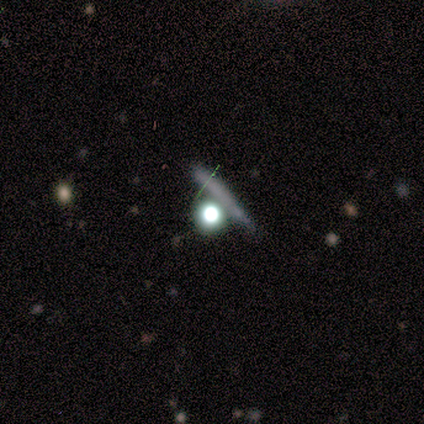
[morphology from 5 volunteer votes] smooth-or-featured: star or artifact: 60% | smooth: 40% | featured or disk: 0%